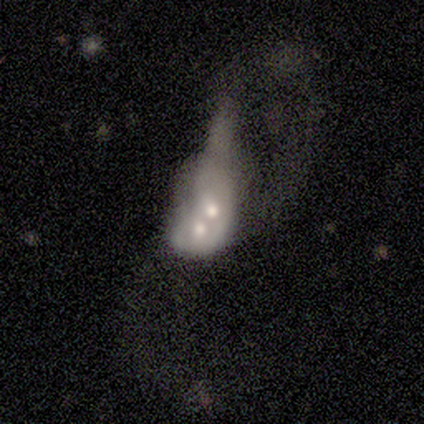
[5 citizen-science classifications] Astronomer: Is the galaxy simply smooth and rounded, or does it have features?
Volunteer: featured or disk — 80%.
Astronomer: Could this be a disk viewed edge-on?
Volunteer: no — 100%.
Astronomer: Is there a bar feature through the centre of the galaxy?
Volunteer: weak — 50%, tied with no at 50%.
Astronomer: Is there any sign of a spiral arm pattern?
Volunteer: no — 100%.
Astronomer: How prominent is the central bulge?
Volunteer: moderate — 75%.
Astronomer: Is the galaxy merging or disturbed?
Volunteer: merger — 60% (runner-up: major disturbance, 40%).